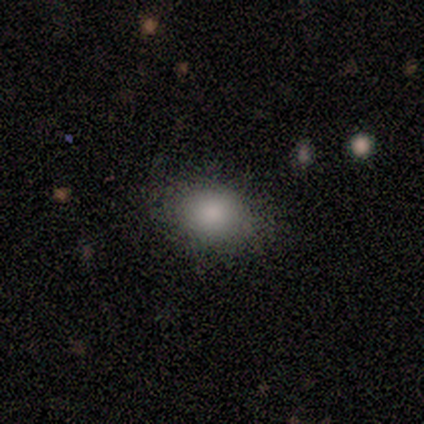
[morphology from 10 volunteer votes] A smooth galaxy with no disk features (100%) that is in between round and cigar-shaped (70%). Merging: none (60%).